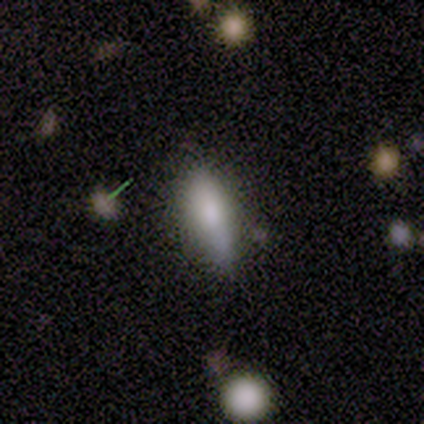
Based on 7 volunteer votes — A smooth galaxy with no disk features (71%) that is in between round and cigar-shaped (80%).

Vote fractions:
- Smooth or featured? smooth: 71% / featured or disk: 29% / star or artifact: 0%
- How rounded? in between: 80% / cigar-shaped: 20% / round: 0%
- Merging? none: 57% / minor disturbance: 29% / merger: 14% / major disturbance: 0%